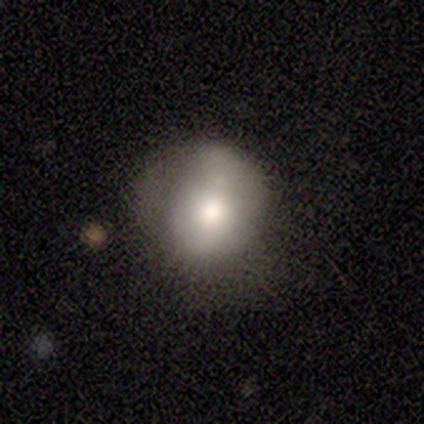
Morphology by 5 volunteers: Overall: smooth (60%; featured or disk 20%). How rounded: round (67%; in between 33%). Merging: none (75%).